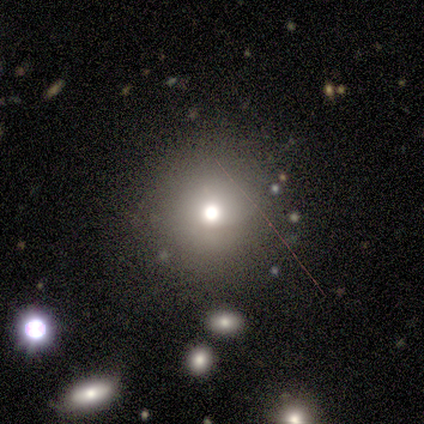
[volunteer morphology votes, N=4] A smooth galaxy with no disk features (100%) that is round (100%).

Vote fractions:
- Smooth or featured? smooth: 100% / featured or disk: 0% / star or artifact: 0%
- How rounded? round: 100% / in between: 0% / cigar-shaped: 0%
- Merging? none: 75% / major disturbance: 25% / minor disturbance: 0% / merger: 0%